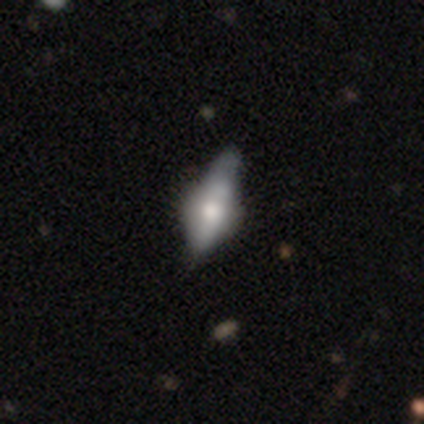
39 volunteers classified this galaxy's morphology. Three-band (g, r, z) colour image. It shows a featured or disk galaxy (69%) viewed edge-on (74%) with a rounded central bulge (80%). Merging: none (32%).